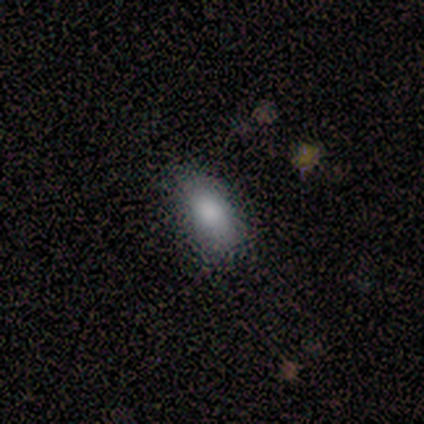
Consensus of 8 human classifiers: Smooth or featured? 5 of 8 (62%) said smooth. How rounded? 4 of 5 (80%) said in between. Merging? 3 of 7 (43%, tied with minor disturbance) said none.